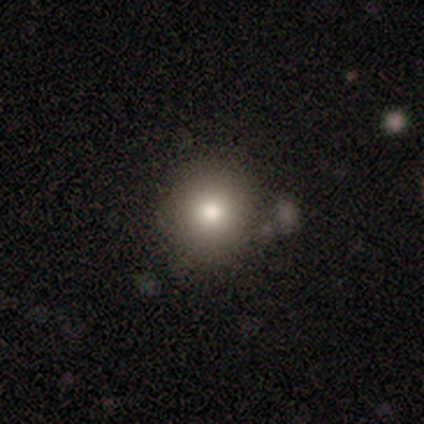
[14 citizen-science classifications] A smooth galaxy with no disk features (79%) that is round (91%).

Vote fractions:
- Smooth or featured? smooth: 79% / featured or disk: 14% / star or artifact: 7%
- How rounded? round: 91% / in between: 9% / cigar-shaped: 0%
- Merging? none: 69% / minor disturbance: 23% / major disturbance: 8% / merger: 0%